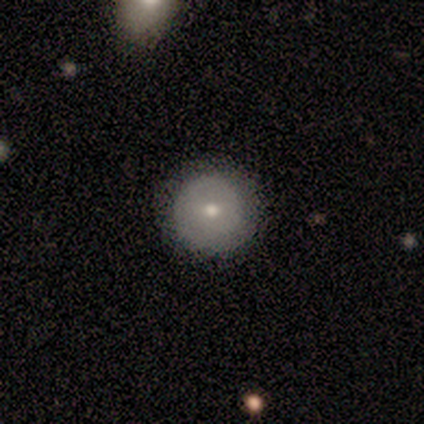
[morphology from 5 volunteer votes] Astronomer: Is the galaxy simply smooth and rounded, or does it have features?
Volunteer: smooth — 100%.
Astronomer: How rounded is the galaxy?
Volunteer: round — 100%.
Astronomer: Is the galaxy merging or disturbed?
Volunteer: minor disturbance — 60% (runner-up: none, 40%).